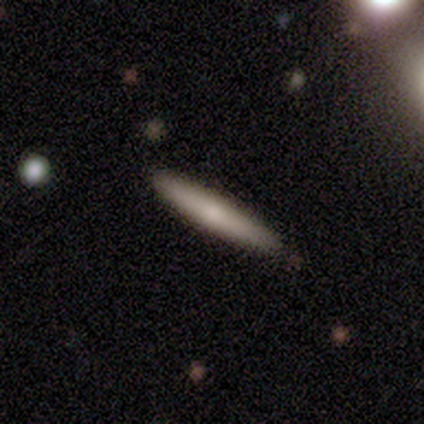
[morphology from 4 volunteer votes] smooth-or-featured: smooth: 50% (tied) | featured or disk: 50% (tied) | star or artifact: 0%
  how-rounded: cigar-shaped: 100% | round: 0% | in between: 0%
  merging: none: 100% | minor disturbance: 0% | major disturbance: 0% | merger: 0%